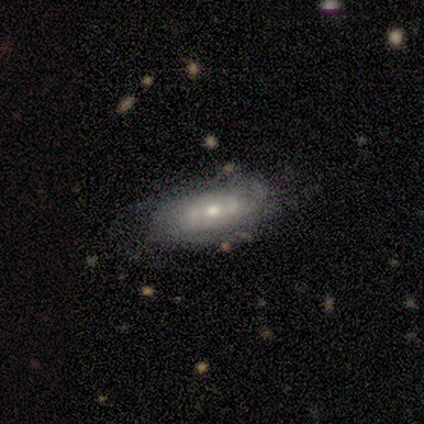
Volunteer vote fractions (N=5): smooth-or-featured: featured or disk: 100% | smooth: 0% | star or artifact: 0%
  disk-edge-on: no: 100% | yes: 0%
    bar: weak: 40% (tied) | no: 40% (tied) | strong: 20%
    has-spiral-arms: yes: 100% | no: 0%
      spiral-winding: tight: 80% | loose: 20% | medium: 0%
      spiral-arm-count: 2: 60% | 1: 20% | can't tell: 20% | 3: 0% | 4: 0% | more than 4: 0%
    bulge-size: small: 60% | moderate: 40% | dominant: 0% | large: 0% | none: 0%
  merging: none: 80% | minor disturbance: 20% | major disturbance: 0% | merger: 0%